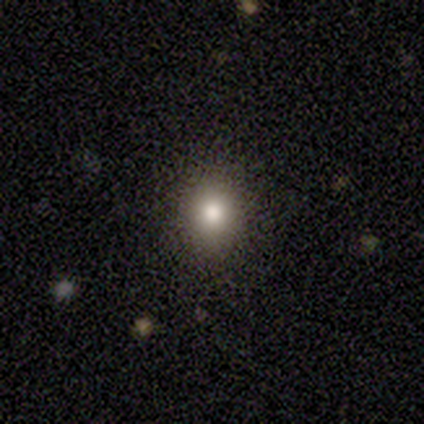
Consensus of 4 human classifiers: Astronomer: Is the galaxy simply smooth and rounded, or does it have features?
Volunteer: smooth — 75%.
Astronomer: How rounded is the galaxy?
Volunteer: in between — 67%.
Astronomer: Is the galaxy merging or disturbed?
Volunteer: none — 67%.